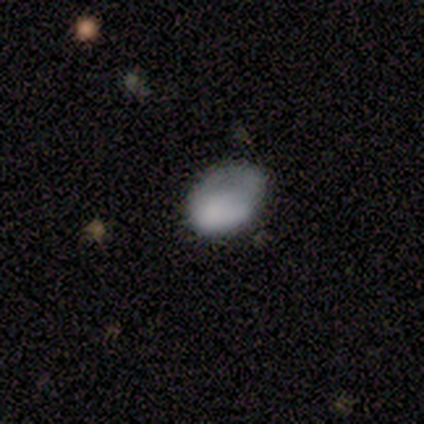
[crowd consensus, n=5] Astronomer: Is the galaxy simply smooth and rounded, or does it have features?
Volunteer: smooth — 60%.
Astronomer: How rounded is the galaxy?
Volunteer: in between — 100%.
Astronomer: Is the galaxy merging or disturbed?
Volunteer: major disturbance — 50%.